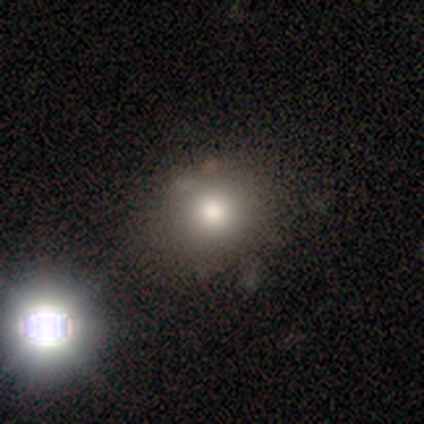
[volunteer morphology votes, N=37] smooth 70%, star or artifact 27%, featured or disk 3%. Down the decision tree: how rounded — round (77%); merging — none (78%).